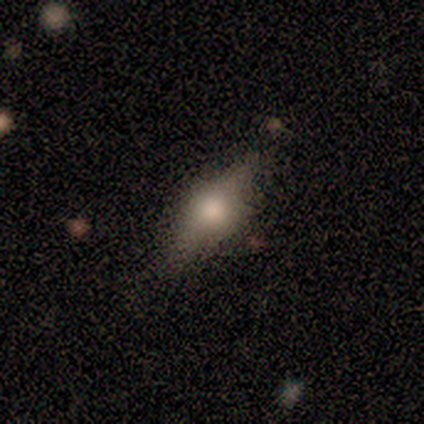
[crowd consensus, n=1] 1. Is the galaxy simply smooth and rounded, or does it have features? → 100% smooth, 0% featured or disk, 0% star or artifact.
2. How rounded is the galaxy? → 100% cigar-shaped, 0% round, 0% in between.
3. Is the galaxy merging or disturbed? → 100% none, 0% minor disturbance, 0% major disturbance, 0% merger.